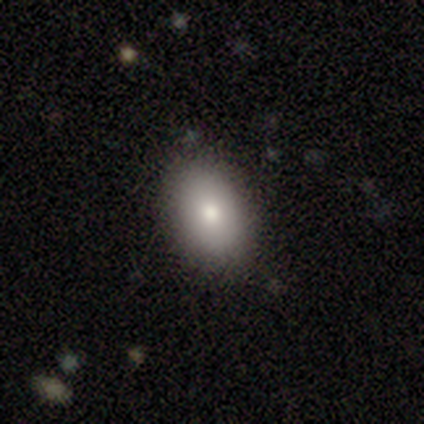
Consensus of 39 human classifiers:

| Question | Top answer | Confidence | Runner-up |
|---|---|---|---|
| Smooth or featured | smooth | 74% | featured or disk (18%) |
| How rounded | in between | 83% | round (17%) |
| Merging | none | 89% | minor disturbance (8%) |